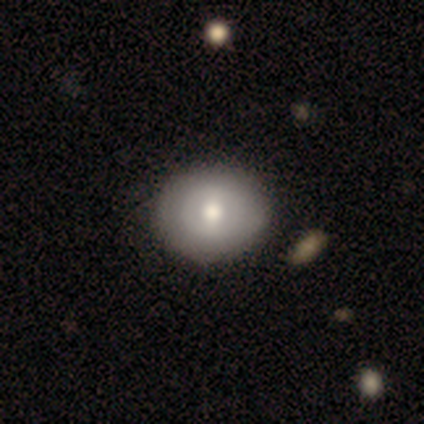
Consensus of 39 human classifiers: smooth 56%, featured or disk 41%, star or artifact 3%. Down the decision tree: how rounded — round (82%); merging — none (63%).